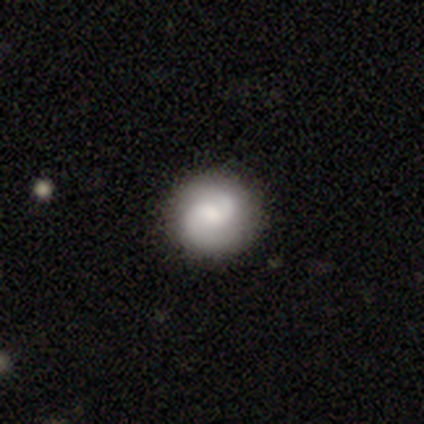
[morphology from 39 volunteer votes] smooth-or-featured: featured or disk: 59% | smooth: 38% | star or artifact: 3%
  disk-edge-on: no: 100% | yes: 0%
    bar: weak: 61% | no: 30% | strong: 9%
    has-spiral-arms: yes: 91% | no: 9%
      spiral-winding: medium: 52% | loose: 38% | tight: 10%
      spiral-arm-count: 2: 90% | 4: 5% | can't tell: 5% | 1: 0% | 3: 0% | more than 4: 0%
    bulge-size: moderate: 43% | small: 35% | large: 13% | dominant: 4% | none: 4%
  merging: none: 89% | minor disturbance: 5% | merger: 5% | major disturbance: 0%